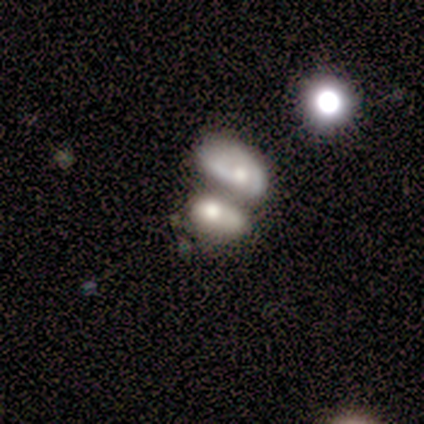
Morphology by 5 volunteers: Smooth or featured? smooth (40%, tied with featured or disk)
How rounded? in between (100%)
Merging? merger (100%)